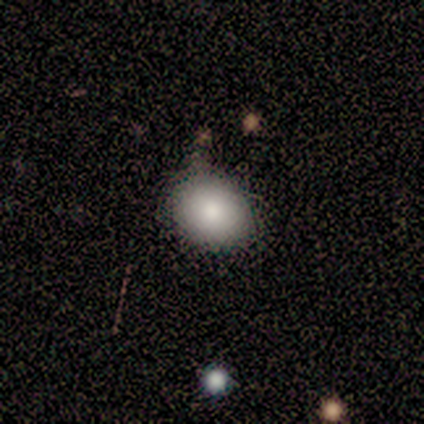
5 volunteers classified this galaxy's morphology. This appears to be a smooth galaxy with no disk features (100%) that is in between round and cigar-shaped (80%). Merging: none (80%).